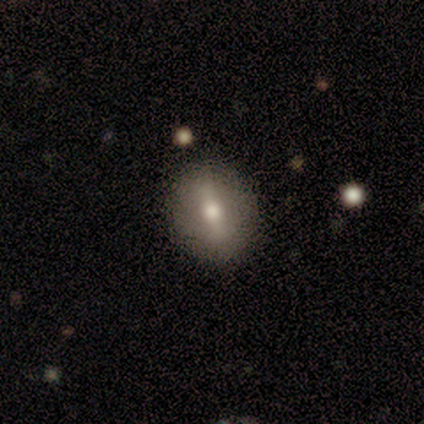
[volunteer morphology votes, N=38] type=smooth (53%); roundness=round (55%); merging=none (61%).